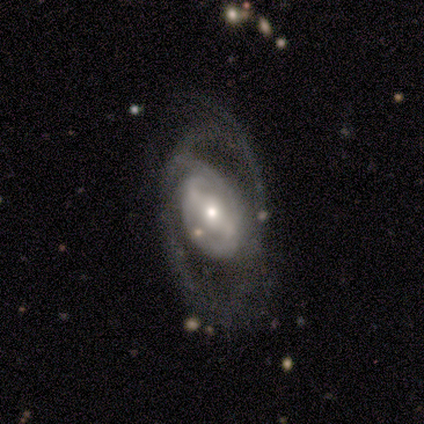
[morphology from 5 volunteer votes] This appears to be a featured or disk galaxy (60%) with a strong bar (67%), no spiral arms (67%) and a moderate central bulge (67%). Merging: none (50%).